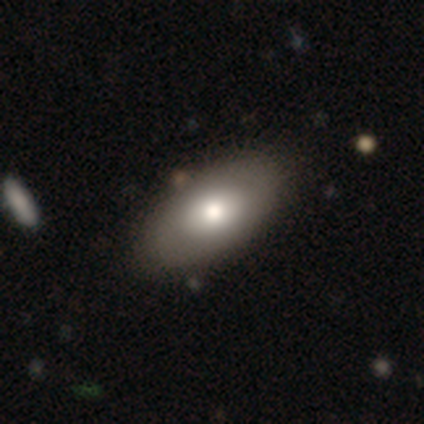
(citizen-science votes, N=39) Smooth or featured? 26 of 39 (67%) said smooth. How rounded? 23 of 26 (88%) said in between. Merging? 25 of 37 (68%) said none.